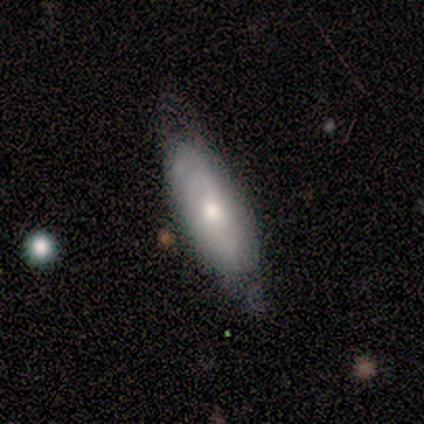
smooth_or_featured: smooth (p=0.60) [alt: featured or disk p=0.40]
how_rounded: in between (p=1.00)
merging: none (p=0.60) [alt: minor disturbance p=0.20]